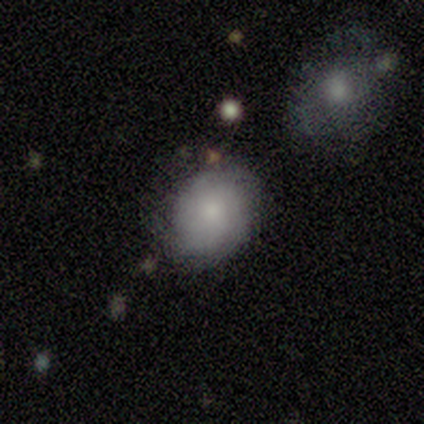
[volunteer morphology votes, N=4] A featured or disk galaxy (100%) with no bar (75%), medium (75%) spiral arms (100%) and a small central bulge (50%).

Vote fractions:
- Smooth or featured? featured or disk: 100% / smooth: 0% / star or artifact: 0%
- Edge-on disk? no: 100% / yes: 0%
- Bar? no: 75% / weak: 25% / strong: 0%
- Spiral arms? yes: 100% / no: 0%
- Spiral winding? medium: 75% / tight: 25% / loose: 0%
- Spiral arm count? can't tell: 75% / 3: 25% / 1: 0% / 2: 0% / 4: 0% / more than 4: 0%
- Bulge size? small: 50% / large: 25% / moderate: 25% / dominant: 0% / none: 0%
- Merging? none: 50% / minor disturbance: 25% / major disturbance: 25% / merger: 0%